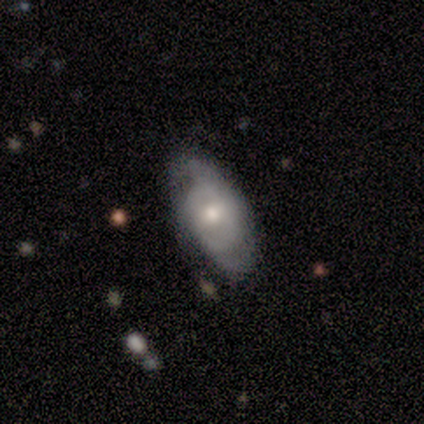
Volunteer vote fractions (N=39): Volunteers were most divided on "spiral winding" (2-way tie): tight: 35%, medium: 35%, loose: 29%. More confident: edge-on disk — no (89%); smooth or featured — featured or disk (72%); spiral arms — yes (68%); bulge size — moderate (68%); spiral arm count — 2 (65%); bar — no (64%); merging — none (54%).